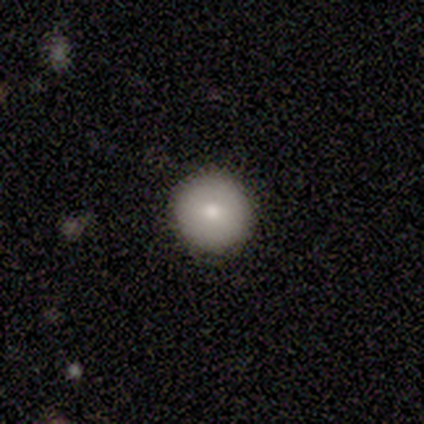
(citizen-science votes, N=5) Smooth or featured? 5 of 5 (100%) said smooth. How rounded? 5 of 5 (100%) said round. Merging? 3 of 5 (60%) said none.